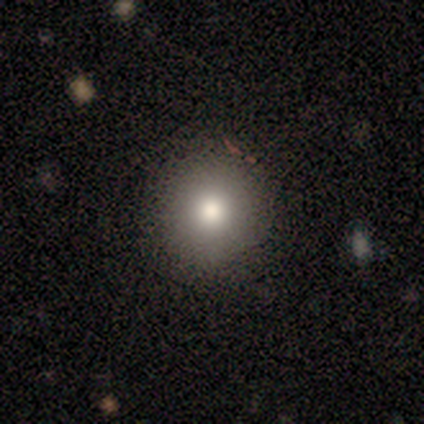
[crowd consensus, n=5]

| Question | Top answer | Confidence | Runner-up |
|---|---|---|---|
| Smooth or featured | smooth | 80% | star or artifact (20%) |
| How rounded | round | 100% | — |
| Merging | none | 100% | — |